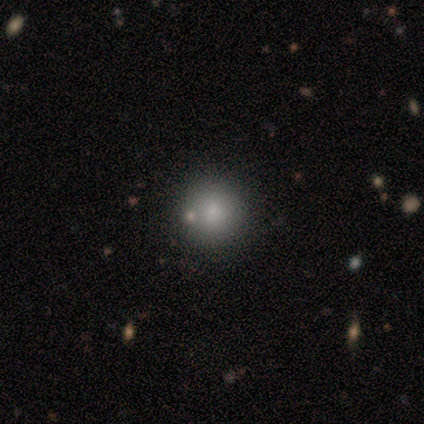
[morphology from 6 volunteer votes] Smooth or featured?
  - smooth: 100% *
  - featured or disk: 0%
  - star or artifact: 0%
How rounded?
  - round: 100% *
  - in between: 0%
  - cigar-shaped: 0%
Merging?
  - none: 67% *
  - minor disturbance: 33%
  - major disturbance: 0%
  - merger: 0%